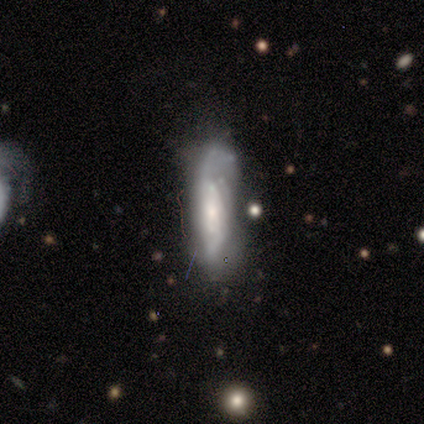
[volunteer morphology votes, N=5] smooth_or_featured: featured or disk (p=0.80) [alt: smooth p=0.20]
disk_edge_on: no (p=1.00)
bar: no (p=0.75) [alt: weak p=0.25]
has_spiral_arms: yes (p=1.00)
spiral_winding: tight (p=0.50) [tied with: medium p=0.50]
spiral_arm_count: 3 (p=0.50) [alt: 2 p=0.25]
bulge_size: small (p=0.75) [alt: moderate p=0.25]
merging: none (p=0.60) [alt: minor disturbance p=0.40]